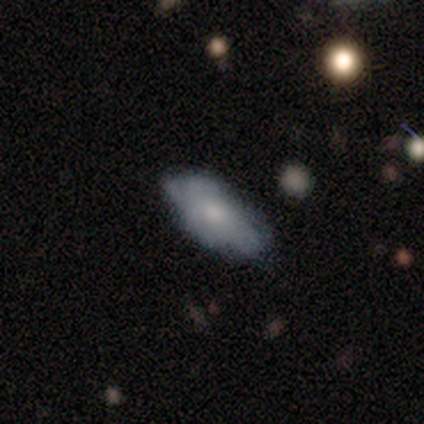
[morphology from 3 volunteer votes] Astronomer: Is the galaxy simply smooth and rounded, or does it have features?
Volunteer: featured or disk — 100%.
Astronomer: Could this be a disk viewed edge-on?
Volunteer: no — 100%.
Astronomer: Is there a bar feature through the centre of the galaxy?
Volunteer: no — 100%.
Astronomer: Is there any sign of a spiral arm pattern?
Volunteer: no — 67%.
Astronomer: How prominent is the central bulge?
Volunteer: small — 67%.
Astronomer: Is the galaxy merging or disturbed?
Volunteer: minor disturbance — 67%.